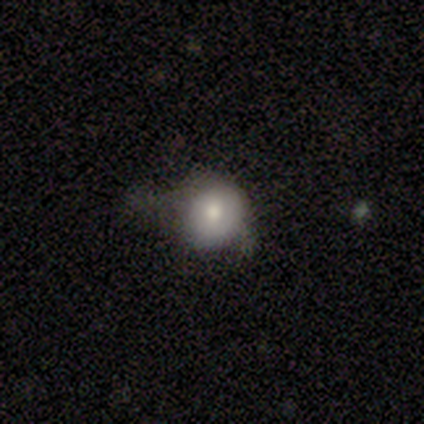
A smooth galaxy with no disk features (69%) that is round (74%).

Vote fractions:
- Smooth or featured? smooth: 69% / featured or disk: 26% / star or artifact: 5%
- How rounded? round: 74% / in between: 26% / cigar-shaped: 0%
- Merging? none: 38% (tied) / minor disturbance: 38% (tied) / major disturbance: 22% / merger: 3%